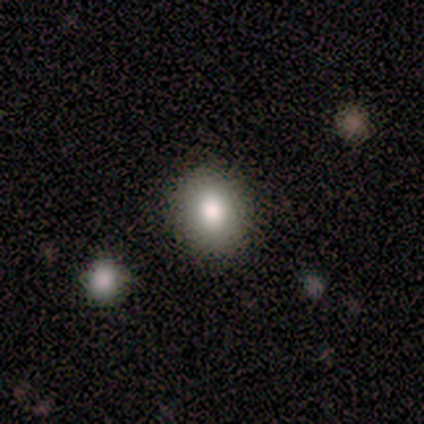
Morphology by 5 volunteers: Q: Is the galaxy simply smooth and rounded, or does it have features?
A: smooth — 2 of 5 (40%, tied with star or artifact).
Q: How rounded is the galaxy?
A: in between — 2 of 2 (100%).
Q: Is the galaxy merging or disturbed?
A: none — 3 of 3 (100%).